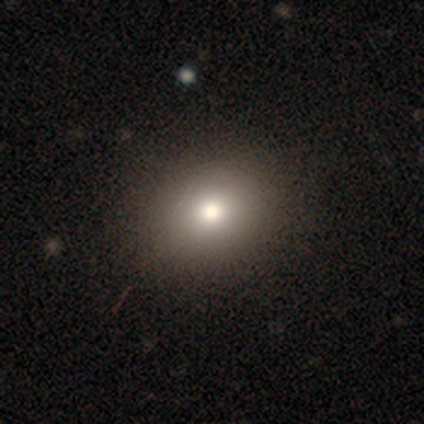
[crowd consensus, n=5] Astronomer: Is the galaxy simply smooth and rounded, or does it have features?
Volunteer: smooth — 80%.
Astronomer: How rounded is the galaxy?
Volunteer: round — 100%.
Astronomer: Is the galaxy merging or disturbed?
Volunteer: none — 100%.